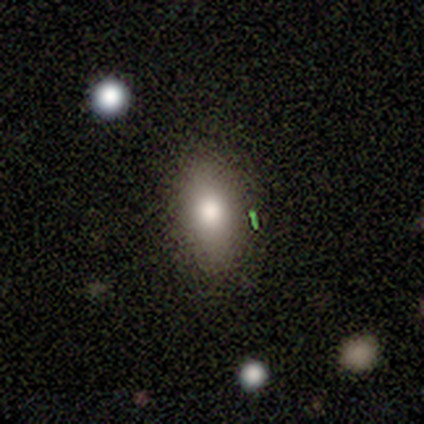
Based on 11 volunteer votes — This is clearly a smooth galaxy (82%). How rounded: likely in between (78%). Merging: likely none (78%).